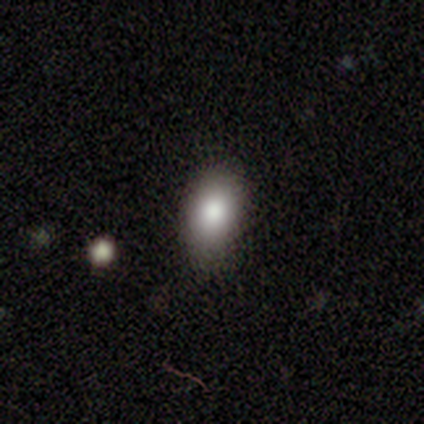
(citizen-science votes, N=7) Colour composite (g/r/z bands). It shows a smooth galaxy with no disk features (100%) that is in between round and cigar-shaped (86%). Merging: none (43%, tied with minor disturbance).